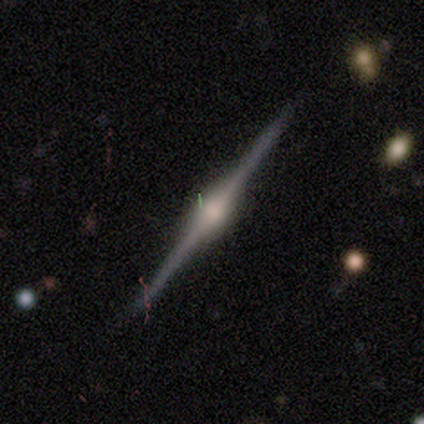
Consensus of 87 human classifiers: Smooth or featured? 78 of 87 (90%) said featured or disk. Edge-on disk? 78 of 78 (100%) said yes. Edge-on bulge? 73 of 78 (94%) said rounded. Merging? 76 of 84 (90%) said none.